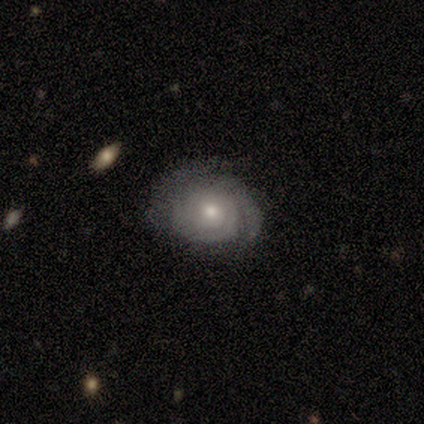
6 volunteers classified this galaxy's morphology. Smooth or featured? featured or disk (67%)
Edge-on disk? no (100%)
Bar? no (75%)
Spiral arms? yes (100%)
Spiral winding? tight (100%)
Spiral arm count? 2 (100%)
Bulge size? small (75%)
Merging? none (60%)